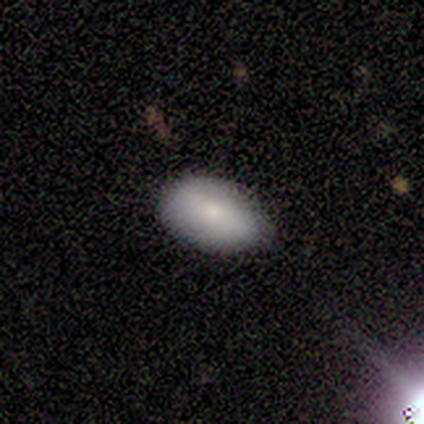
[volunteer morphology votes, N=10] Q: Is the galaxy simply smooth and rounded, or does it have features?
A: smooth — 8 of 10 (80%).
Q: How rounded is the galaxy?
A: in between — 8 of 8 (100%).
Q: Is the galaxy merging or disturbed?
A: none — 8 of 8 (100%).